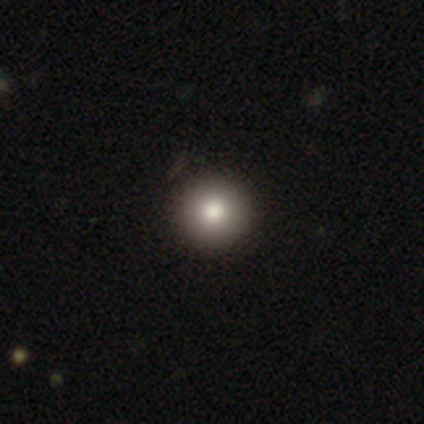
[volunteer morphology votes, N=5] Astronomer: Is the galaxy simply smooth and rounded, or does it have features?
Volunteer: smooth — 100%.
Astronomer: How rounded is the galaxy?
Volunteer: round — 100%.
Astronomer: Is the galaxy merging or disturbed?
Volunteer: none — 100%.